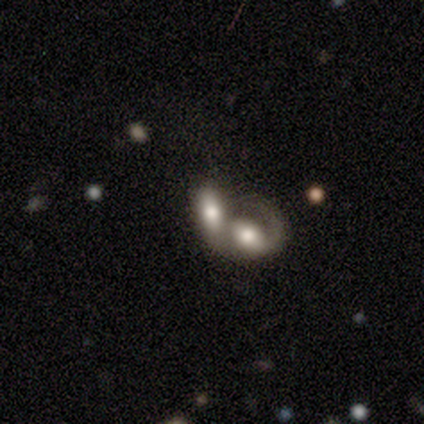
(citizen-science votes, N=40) A smooth galaxy with no disk features (48%) that is in between round and cigar-shaped (79%).

Vote fractions:
- Smooth or featured? smooth: 48% / featured or disk: 42% / star or artifact: 10%
- How rounded? in between: 79% / cigar-shaped: 16% / round: 5%
- Merging? merger: 94% / none: 3% / major disturbance: 3% / minor disturbance: 0%